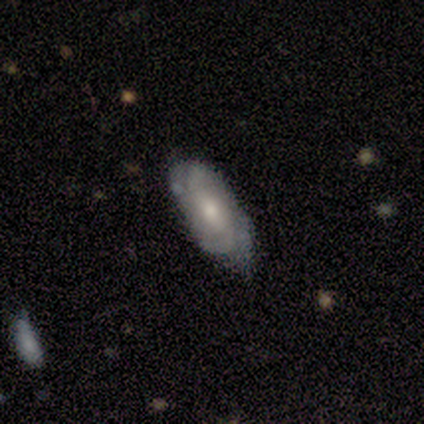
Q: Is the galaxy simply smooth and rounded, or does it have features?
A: featured or disk — 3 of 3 (100%).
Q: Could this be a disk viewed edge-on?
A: no — 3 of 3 (100%).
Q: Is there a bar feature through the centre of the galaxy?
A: no — 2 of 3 (67%).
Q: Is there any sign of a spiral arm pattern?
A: yes — 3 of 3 (100%).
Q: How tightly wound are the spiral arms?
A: tight — 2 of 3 (67%).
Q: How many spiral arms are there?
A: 2 — 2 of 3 (67%).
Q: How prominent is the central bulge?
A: large — 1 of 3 (33%, tied with moderate and small).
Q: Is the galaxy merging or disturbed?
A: none — 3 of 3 (100%).